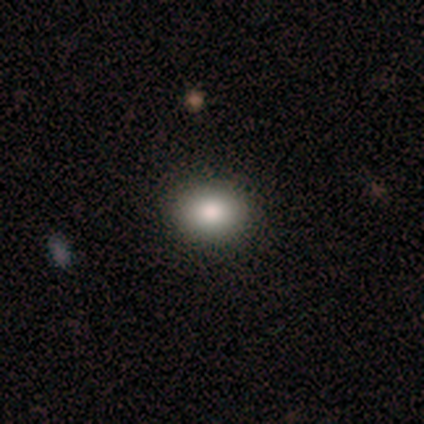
smooth_or_featured: smooth (p=0.75) [alt: featured or disk p=0.25]
how_rounded: in between (p=0.67) [alt: round p=0.33]
merging: none (p=1.00)